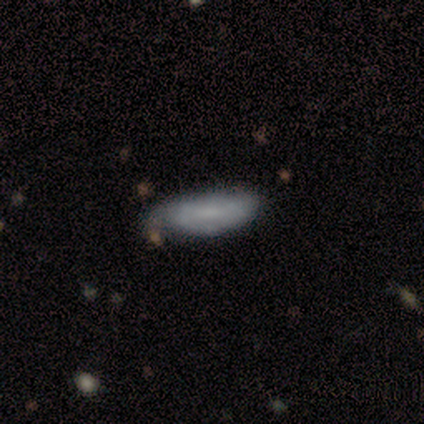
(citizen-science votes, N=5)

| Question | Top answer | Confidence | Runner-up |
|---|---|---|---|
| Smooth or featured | smooth | 60% | featured or disk (40%) |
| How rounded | in between | 67% | cigar-shaped (33%) |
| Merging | none | 100% | — |